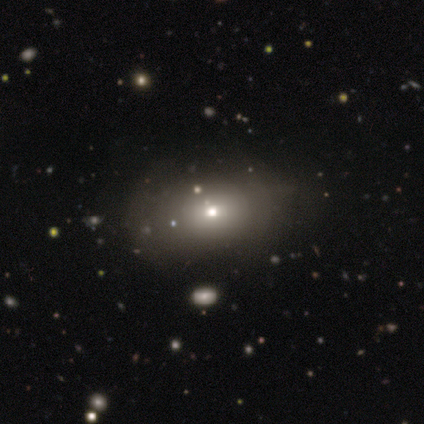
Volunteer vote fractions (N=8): This appears to be a smooth galaxy with no disk features (62%) that is in between round and cigar-shaped (100%). Merging: none (86%).